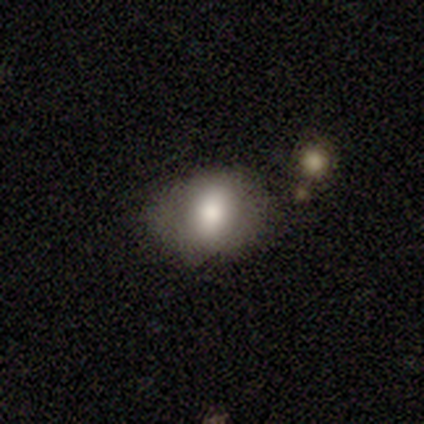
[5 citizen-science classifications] Smooth or featured?
  - smooth: 100% *
  - featured or disk: 0%
  - star or artifact: 0%
How rounded?
  - in between: 80% *
  - round: 20%
  - cigar-shaped: 0%
Merging?
  - none: 100% *
  - minor disturbance: 0%
  - major disturbance: 0%
  - merger: 0%